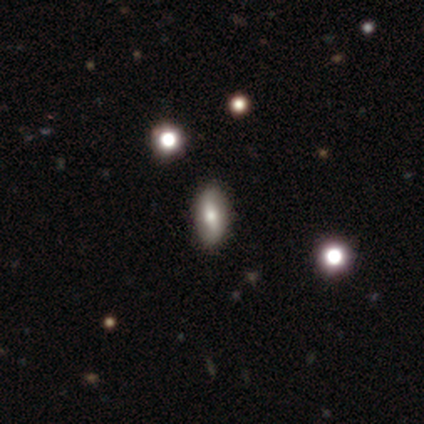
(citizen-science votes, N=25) Morphology: type=smooth (64%); roundness=in between (81%); merging=none (64%).